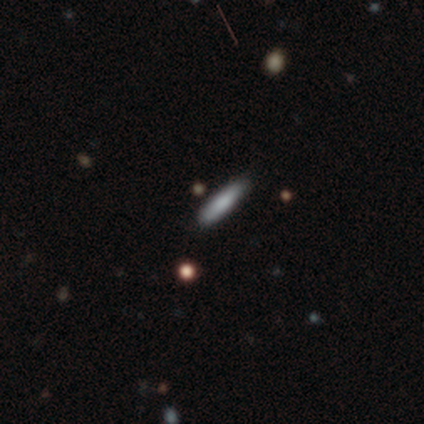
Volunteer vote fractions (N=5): This is clearly a smooth galaxy (100%). How rounded: clearly cigar-shaped (80%). Merging: clearly none (80%).